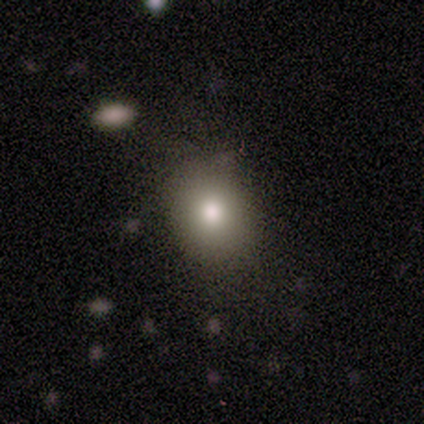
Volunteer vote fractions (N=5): smooth-or-featured: smooth: 100% | featured or disk: 0% | star or artifact: 0%
  how-rounded: round: 80% | in between: 20% | cigar-shaped: 0%
  merging: none: 100% | minor disturbance: 0% | major disturbance: 0% | merger: 0%